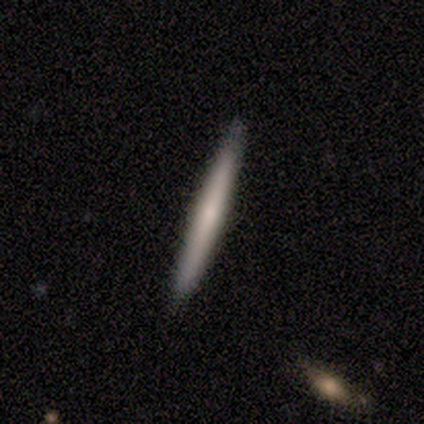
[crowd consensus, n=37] This is possibly a smooth galaxy (49%, tied with featured or disk). How rounded: clearly cigar-shaped (94%). Merging: clearly none (86%).